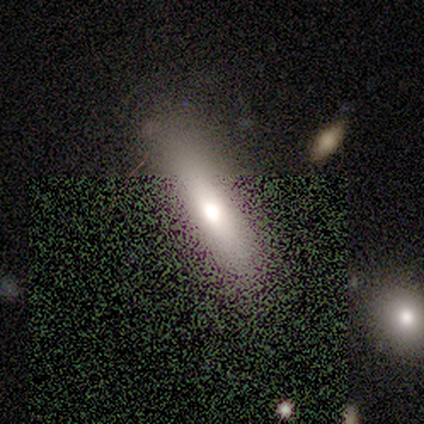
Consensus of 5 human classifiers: Smooth or featured? smooth (60%)
How rounded? cigar-shaped (67%)
Merging? none (100%)